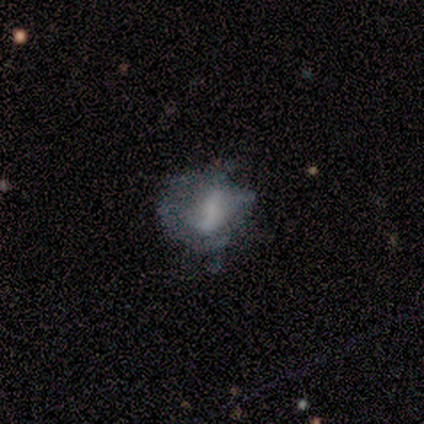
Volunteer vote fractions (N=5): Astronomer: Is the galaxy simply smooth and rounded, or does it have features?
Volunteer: smooth — 60% (runner-up: featured or disk, 40%).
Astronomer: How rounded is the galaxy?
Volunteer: in between — 67%.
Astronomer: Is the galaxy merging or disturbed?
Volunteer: none — 60%.